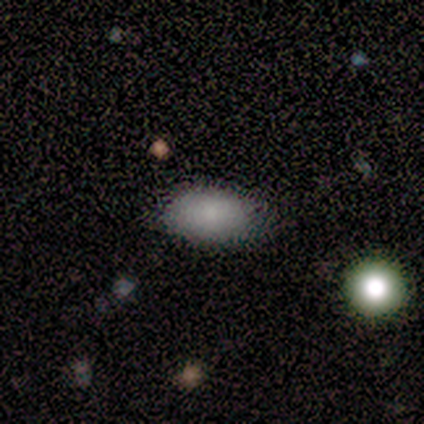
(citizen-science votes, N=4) Volunteers were most divided on "smooth or featured": smooth: 75%, featured or disk: 25%, star or artifact: 0%. More confident: how rounded — in between (100%); merging — none (100%).